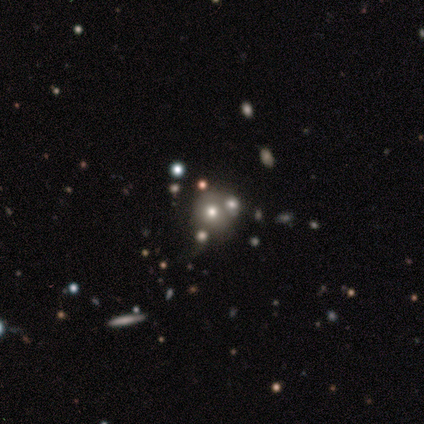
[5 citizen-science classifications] smooth-or-featured: featured or disk: 40% (tied) | star or artifact: 40% (tied) | smooth: 20%
  disk-edge-on: no: 100% | yes: 0%
    bar: no: 100% | strong: 0% | weak: 0%
    has-spiral-arms: no: 100% | yes: 0%
    bulge-size: large: 50% (tied) | moderate: 50% (tied) | dominant: 0% | small: 0% | none: 0%
  merging: none: 67% | merger: 33% | minor disturbance: 0% | major disturbance: 0%